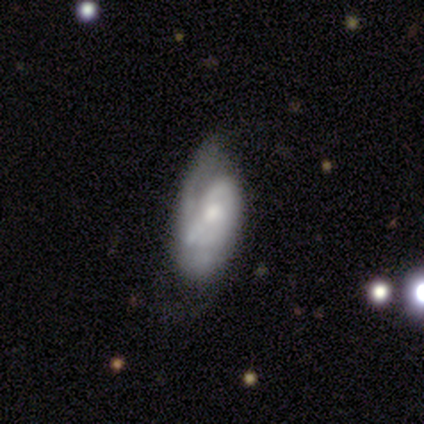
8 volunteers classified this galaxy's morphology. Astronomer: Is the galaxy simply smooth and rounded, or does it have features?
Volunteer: featured or disk — 62%.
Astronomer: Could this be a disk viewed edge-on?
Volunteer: no — 100%.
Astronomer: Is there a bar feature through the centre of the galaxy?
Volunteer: no — 80%.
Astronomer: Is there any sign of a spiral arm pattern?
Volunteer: yes — 100%.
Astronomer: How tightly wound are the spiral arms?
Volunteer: tight — 60% (runner-up: medium, 40%).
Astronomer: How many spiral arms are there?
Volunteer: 1 — 40%, tied with 2 at 40%.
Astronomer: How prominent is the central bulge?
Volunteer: moderate — 80%.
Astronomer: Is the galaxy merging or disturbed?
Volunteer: minor disturbance — 43%, tied with major disturbance at 43%.